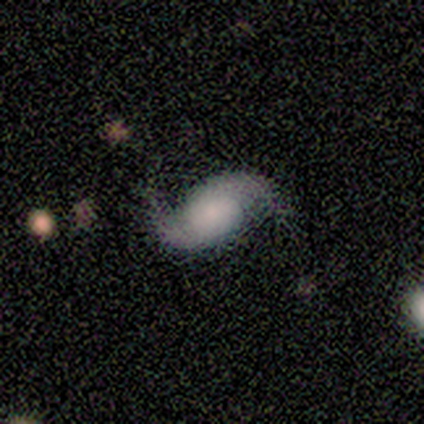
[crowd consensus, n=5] smooth-or-featured: featured or disk: 100% | smooth: 0% | star or artifact: 0%
  disk-edge-on: no: 100% | yes: 0%
    bar: weak: 60% | no: 40% | strong: 0%
    has-spiral-arms: yes: 100% | no: 0%
      spiral-winding: loose: 80% | medium: 20% | tight: 0%
      spiral-arm-count: 2: 100% | 1: 0% | 3: 0% | 4: 0% | more than 4: 0% | can't tell: 0%
    bulge-size: moderate: 40% (tied) | none: 40% (tied) | large: 20% | dominant: 0% | small: 0%
  merging: none: 100% | minor disturbance: 0% | major disturbance: 0% | merger: 0%